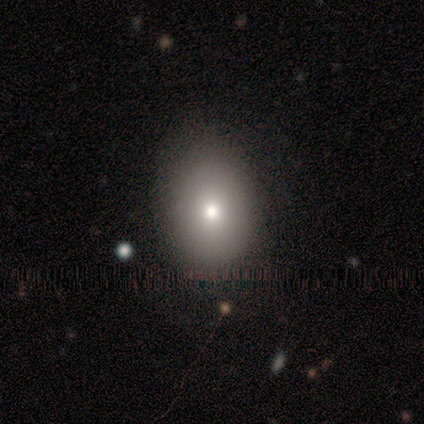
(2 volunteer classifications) Q: Smooth or featured?
A: smooth (100%)
Q: How rounded?
A: in between (100%)
Q: Merging?
A: none (100%)